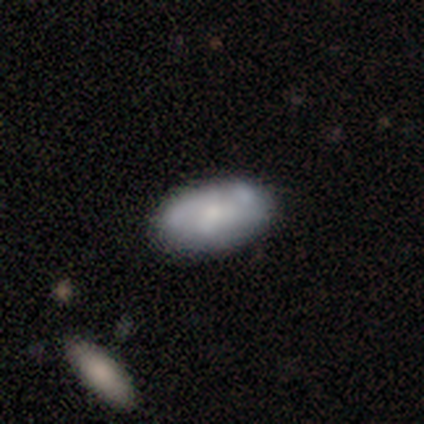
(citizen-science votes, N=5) Q: Smooth or featured?
A: featured or disk (80%); runner-up: smooth (20%)
Q: Edge-on disk?
A: no (100%)
Q: Bar?
A: no (75%); runner-up: weak (25%)
Q: Spiral arms?
A: no (75%); runner-up: yes (25%)
Q: Bulge size?
A: moderate (50%); tied with: small (50%)
Q: Merging?
A: none (60%); runner-up: minor disturbance (20%)